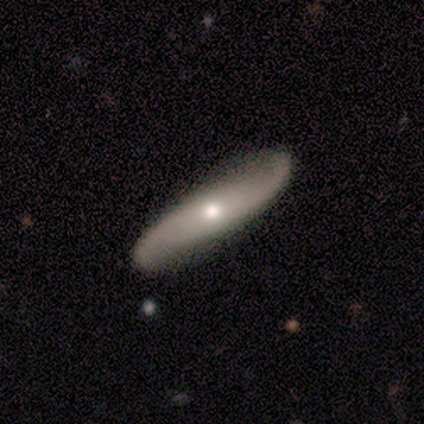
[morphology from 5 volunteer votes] A featured or disk galaxy (80%) with no bar (100%), 2 (100%) loose (67%) spiral arms (75%) and a moderate central bulge (75%). Merging: none (60%).